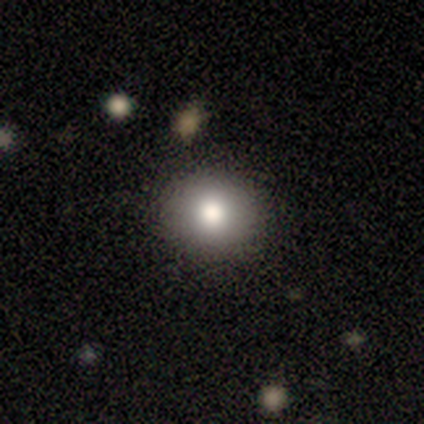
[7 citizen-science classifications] Morphology: type=smooth (86%); roundness=round (83%); merging=none (71%).